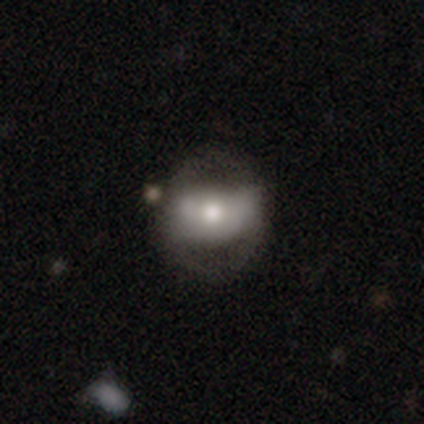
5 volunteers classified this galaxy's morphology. A featured or disk galaxy (60%) with no bar (67%), no spiral arms (100%) and a moderate central bulge (67%). Merging: none (75%).